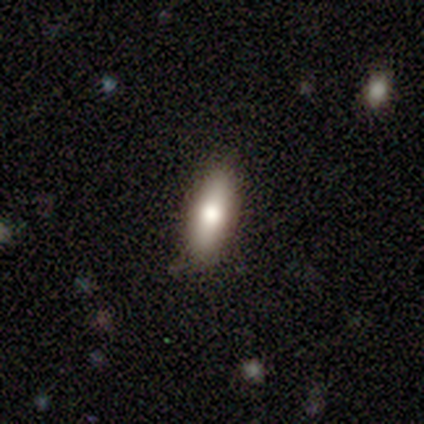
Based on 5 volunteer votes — Volunteers were most divided on "how rounded": in between: 60%, cigar-shaped: 40%, round: 0%. More confident: smooth or featured — smooth (100%); merging — none (60%).